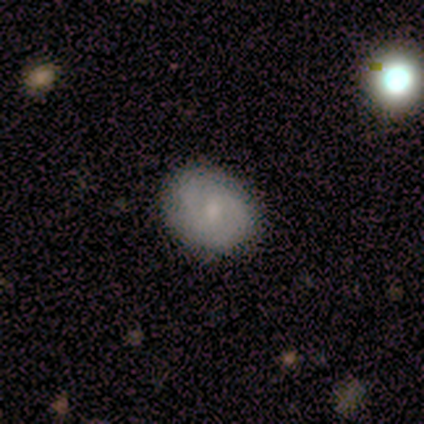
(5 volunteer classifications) This appears to be a featured or disk galaxy (80%) with no bar (75%), 2 (50%, tied with 3) medium (100%) spiral arms (50%, tied with no) and a moderate central bulge (50%, tied with small). Merging: none (60%).